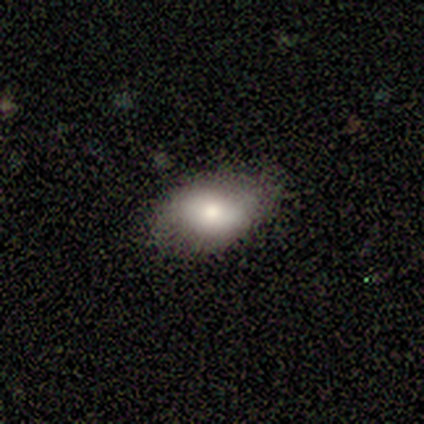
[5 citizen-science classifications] Morphology: type=smooth (80%); roundness=in between (100%); merging=none (80%).